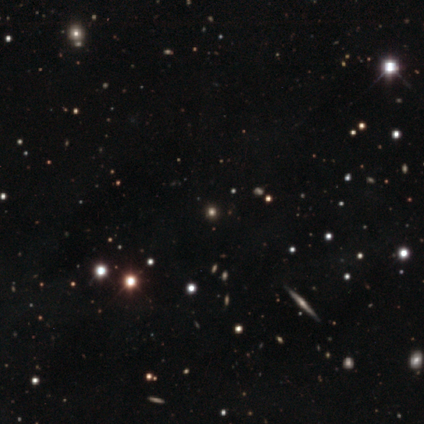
This appears to be a star or artifact, not a galaxy (60%).